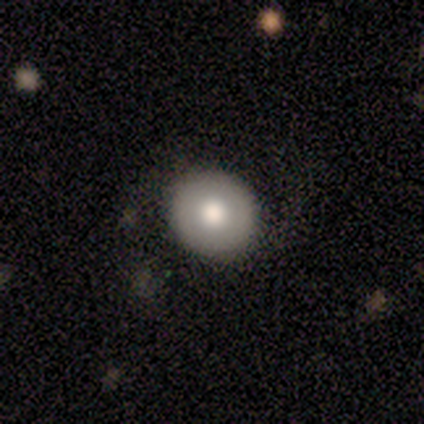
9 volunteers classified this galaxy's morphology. A smooth galaxy with no disk features (89%) that is round (100%). Merging: none (89%).